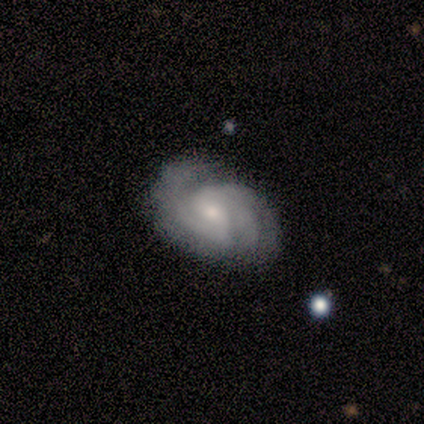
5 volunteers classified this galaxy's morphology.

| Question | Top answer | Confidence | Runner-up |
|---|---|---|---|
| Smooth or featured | featured or disk | 80% | smooth (20%) |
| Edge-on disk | no | 100% | — |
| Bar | weak | 50% | tied: no (50%) |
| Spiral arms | yes | 100% | — |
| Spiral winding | tight | 100% | — |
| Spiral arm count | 3 | 50% | 2 (25%) |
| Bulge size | moderate | 75% | small (25%) |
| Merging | none | 40% | minor disturbance (20%) |